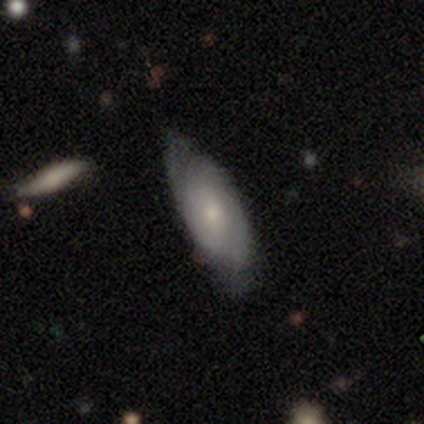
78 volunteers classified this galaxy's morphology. Q: Smooth or featured?
A: featured or disk (63%); runner-up: smooth (32%)
Q: Edge-on disk?
A: no (90%); runner-up: yes (10%)
Q: Bar?
A: no (75%); runner-up: weak (23%)
Q: Spiral arms?
A: yes (89%); runner-up: no (11%)
Q: Spiral winding?
A: tight (56%); runner-up: medium (33%)
Q: Spiral arm count?
A: 2 (59%); runner-up: can't tell (36%)
Q: Bulge size?
A: small (64%); runner-up: moderate (32%)
Q: Merging?
A: none (69%); runner-up: minor disturbance (27%)